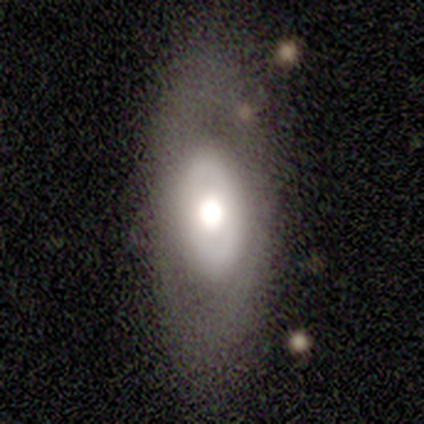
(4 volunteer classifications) This is likely a featured or disk galaxy (75%). It is clearly not viewed edge-on (100%). Bar: likely no (67%). Spiral arm pattern: likely no (67%). Central bulge: likely moderate (67%). Merging: clearly none (100%).